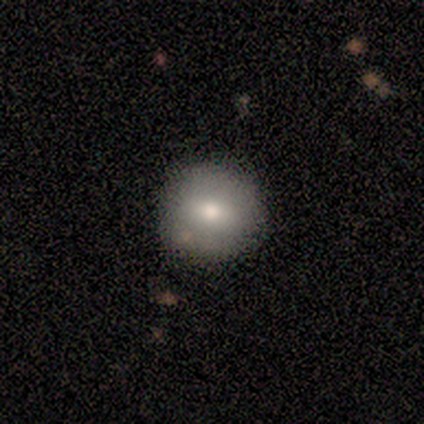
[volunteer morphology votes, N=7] Q: Smooth or featured?
A: smooth (86%); runner-up: featured or disk (14%)
Q: How rounded?
A: round (100%)
Q: Merging?
A: none (86%); runner-up: minor disturbance (14%)